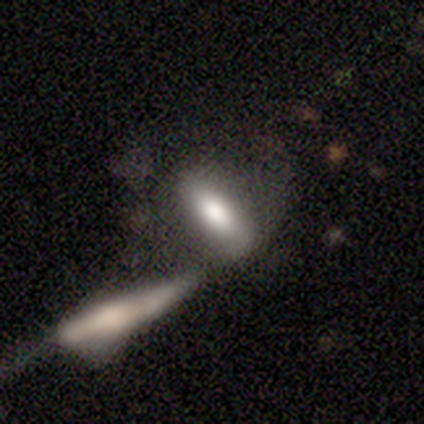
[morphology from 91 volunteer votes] smooth 63%, featured or disk 26%, star or artifact 11%. Down the decision tree: how rounded — in between (63%); merging — merger (59%).